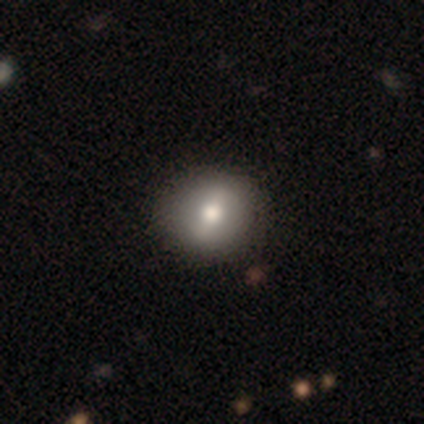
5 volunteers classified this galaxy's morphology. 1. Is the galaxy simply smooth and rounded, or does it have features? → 60% smooth, 40% featured or disk, 0% star or artifact.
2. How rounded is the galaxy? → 67% in between, 33% round, 0% cigar-shaped.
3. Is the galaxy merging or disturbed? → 100% none, 0% minor disturbance, 0% major disturbance, 0% merger.